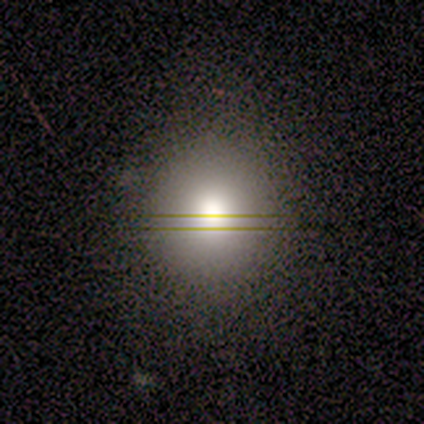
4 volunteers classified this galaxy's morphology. A smooth galaxy with no disk features (50%, tied with star or artifact) that is round (100%). Merging: none (100%).